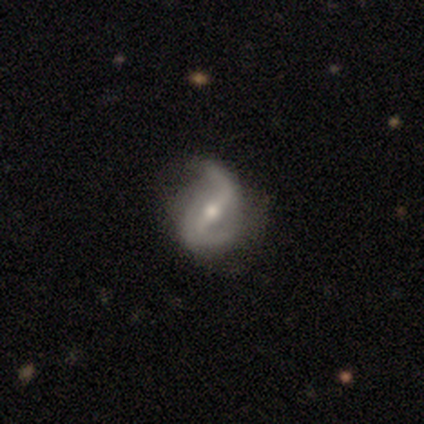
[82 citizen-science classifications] Smooth or featured: featured or disk — 90% (smooth — 7%)
Edge-on disk: no — 96% (yes — 4%)
Bar: strong — 52% (weak — 34%)
Spiral arms: yes — 94% (no — 6%)
Spiral winding: loose — 70% (medium — 24%)
Spiral arm count: 2 — 87% (1 — 7%)
Bulge size: moderate — 61% (small — 39%)
Merging: none — 57% (minor disturbance — 22%)